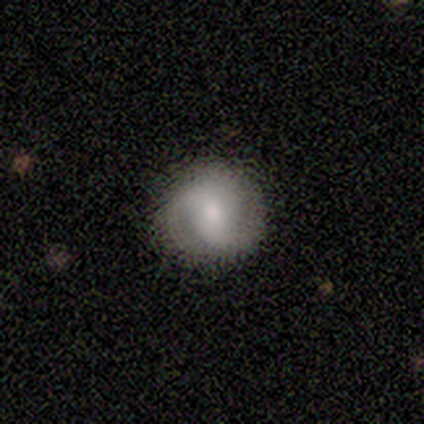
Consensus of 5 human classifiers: featured or disk 80%, smooth 20%, star or artifact 0%. Down the decision tree: edge-on disk — no (100%); bar — no (75%); spiral arms — yes (100%); spiral arm count — 2 (100%); spiral winding — medium (75%); bulge size — moderate (50%); merging — none (80%).